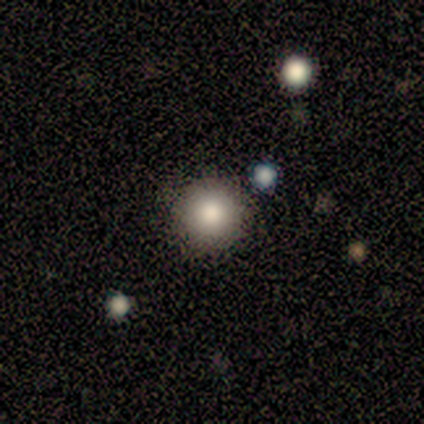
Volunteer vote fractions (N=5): Morphology: type=smooth (100%); roundness=round (100%); merging=none (80%).